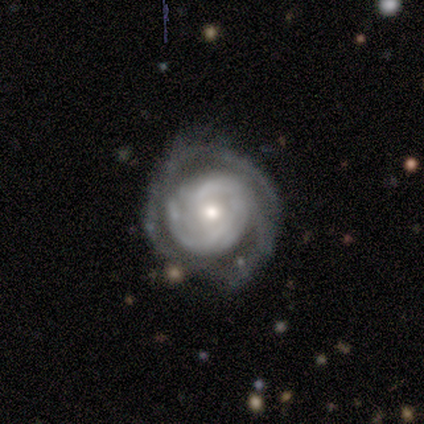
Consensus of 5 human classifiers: smooth-or-featured: featured or disk: 100% | smooth: 0% | star or artifact: 0%
  disk-edge-on: no: 100% | yes: 0%
    bar: no: 100% | strong: 0% | weak: 0%
    has-spiral-arms: yes: 80% | no: 20%
      spiral-winding: tight: 100% | medium: 0% | loose: 0%
      spiral-arm-count: can't tell: 50% | 3: 25% | 4: 25% | 1: 0% | 2: 0% | more than 4: 0%
    bulge-size: small: 60% | moderate: 40% | dominant: 0% | large: 0% | none: 0%
  merging: none: 100% | minor disturbance: 0% | major disturbance: 0% | merger: 0%